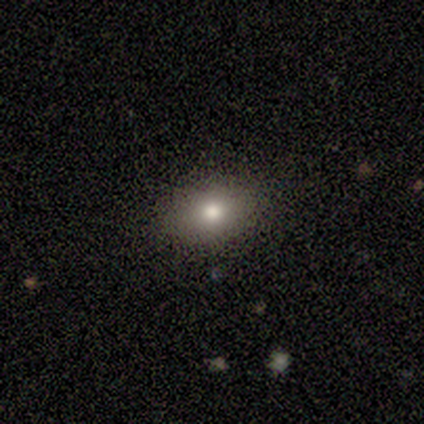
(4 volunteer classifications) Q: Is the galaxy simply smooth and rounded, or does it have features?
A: smooth — 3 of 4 (75%).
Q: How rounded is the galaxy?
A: round — 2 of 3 (67%).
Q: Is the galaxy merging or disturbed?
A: none — 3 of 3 (100%).